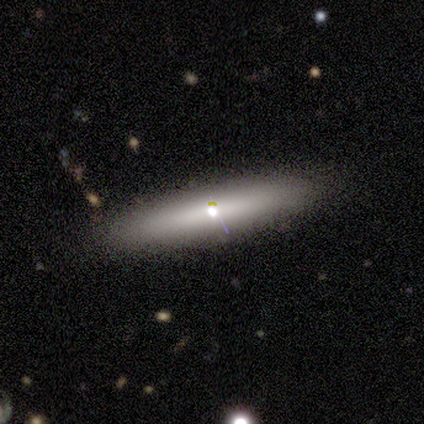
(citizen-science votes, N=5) A star or artifact, not a galaxy (60%).